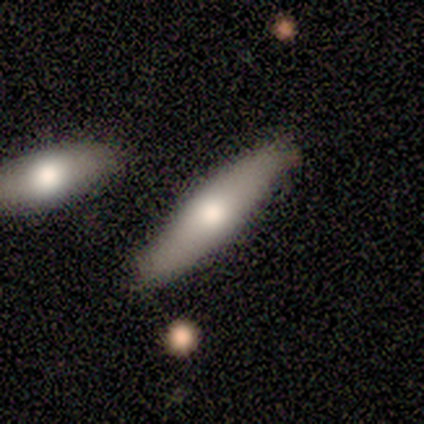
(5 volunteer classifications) featured or disk 60%, smooth 40%, star or artifact 0%. Down the decision tree: edge-on disk — yes (67%); edge-on bulge — none (50%, tied with rounded); merging — none (100%).